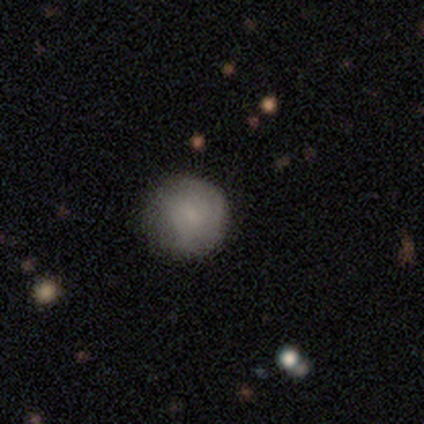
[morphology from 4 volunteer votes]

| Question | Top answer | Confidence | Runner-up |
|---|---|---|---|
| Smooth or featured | smooth | 75% | star or artifact (25%) |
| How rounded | round | 100% | — |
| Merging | none | 67% | minor disturbance (33%) |